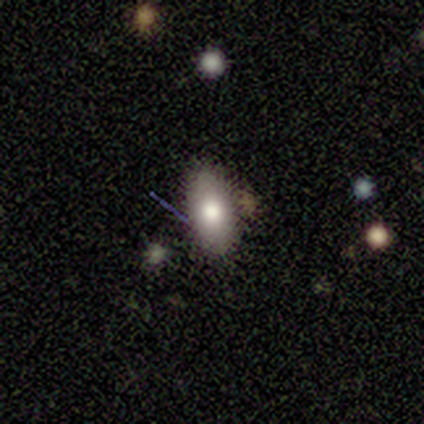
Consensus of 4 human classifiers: Smooth or featured? 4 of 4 (100%) said smooth. How rounded? 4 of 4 (100%) said in between. Merging? 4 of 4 (100%) said none.